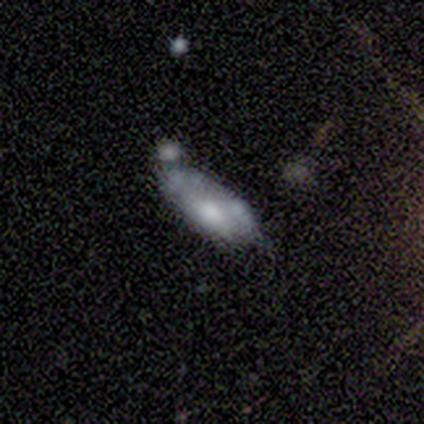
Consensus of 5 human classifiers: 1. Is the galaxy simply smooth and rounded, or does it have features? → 60% smooth, 40% featured or disk, 0% star or artifact.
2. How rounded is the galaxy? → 100% in between, 0% round, 0% cigar-shaped.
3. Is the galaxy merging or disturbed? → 60% none, 20% minor disturbance, 20% merger, 0% major disturbance.